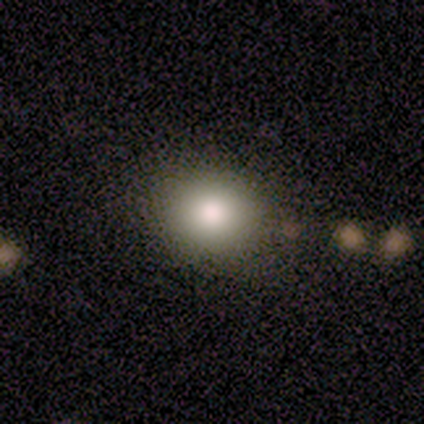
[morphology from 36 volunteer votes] A smooth galaxy with no disk features (86%) that is round (74%). Merging: none (84%).